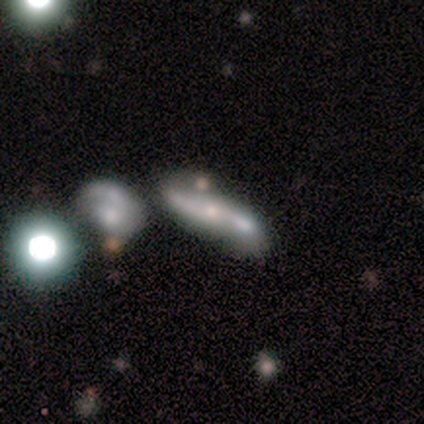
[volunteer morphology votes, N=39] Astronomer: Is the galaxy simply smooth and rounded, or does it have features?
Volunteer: featured or disk — 59%.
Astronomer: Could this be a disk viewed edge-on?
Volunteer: no — 78%.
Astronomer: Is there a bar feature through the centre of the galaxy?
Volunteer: no — 67%.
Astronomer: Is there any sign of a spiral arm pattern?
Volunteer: yes — 61% (runner-up: no, 39%).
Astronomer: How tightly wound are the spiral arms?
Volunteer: loose — 73%.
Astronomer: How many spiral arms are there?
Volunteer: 2 — 73%.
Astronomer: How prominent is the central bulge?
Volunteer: small — 56%.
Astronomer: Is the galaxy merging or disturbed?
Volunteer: merger — 47% (runner-up: none, 25%).